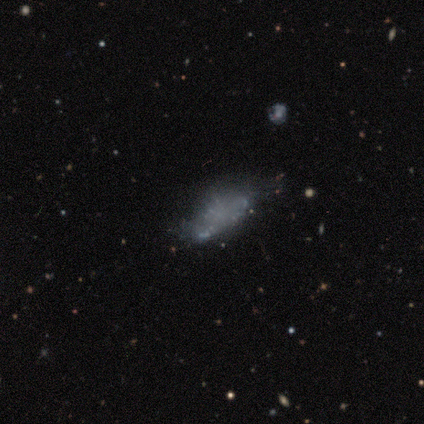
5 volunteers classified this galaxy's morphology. Volunteers were most divided on "smooth or featured": smooth: 60%, featured or disk: 40%, star or artifact: 0%. More confident: how rounded — in between (67%); merging — none (60%).